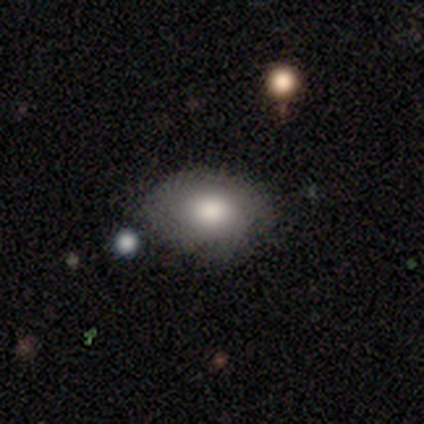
smooth_or_featured: smooth (p=0.80) [alt: star or artifact p=0.20]
how_rounded: round (p=0.50) [tied with: in between p=0.50]
merging: none (p=0.75) [alt: major disturbance p=0.25]